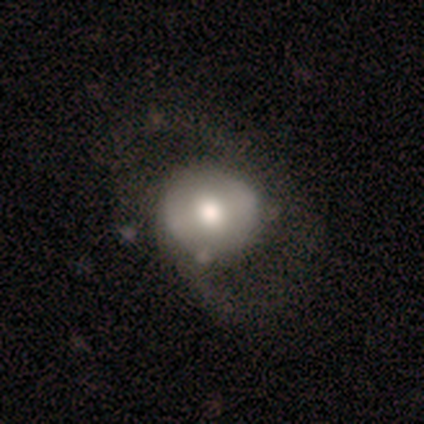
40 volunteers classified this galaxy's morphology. This appears to be a featured or disk galaxy (60%) with no bar (65%), no spiral arms (52%) and a moderate central bulge (52%). Merging: major disturbance (33%).